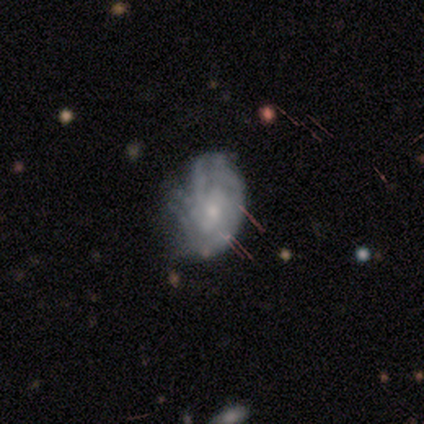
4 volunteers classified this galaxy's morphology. Smooth or featured? 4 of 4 (100%) said featured or disk. Edge-on disk? 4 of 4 (100%) said no. Bar? 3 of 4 (75%) said no. Spiral arms? 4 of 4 (100%) said yes. Spiral winding? 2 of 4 (50%, tied with medium) said tight. Spiral arm count? 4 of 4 (100%) said can't tell. Bulge size? 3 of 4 (75%) said small. Merging? 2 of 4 (50%) said none.